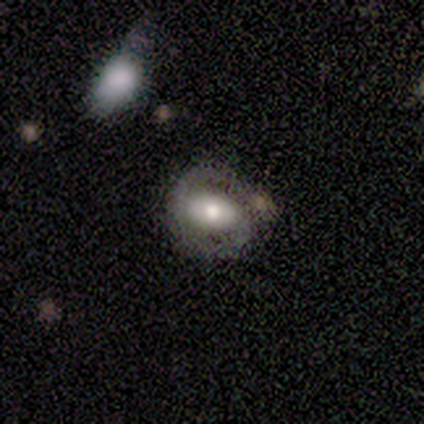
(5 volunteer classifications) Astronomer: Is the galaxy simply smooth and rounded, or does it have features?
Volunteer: featured or disk — 80%.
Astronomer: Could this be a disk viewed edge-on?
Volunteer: no — 100%.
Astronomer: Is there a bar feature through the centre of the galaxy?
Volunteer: strong — 50%, tied with no at 50%.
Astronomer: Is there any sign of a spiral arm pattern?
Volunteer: yes — 75%.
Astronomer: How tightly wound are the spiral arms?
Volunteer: tight — 67%.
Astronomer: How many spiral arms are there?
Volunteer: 2 — 100%.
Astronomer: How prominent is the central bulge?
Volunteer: moderate — 75%.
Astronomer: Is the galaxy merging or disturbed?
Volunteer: none — 80%.